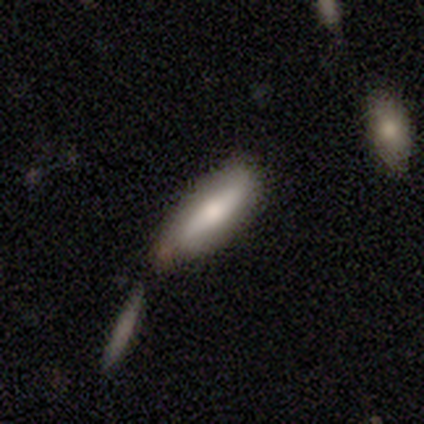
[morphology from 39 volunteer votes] smooth 64%, featured or disk 31%, star or artifact 5%. Down the decision tree: how rounded — cigar-shaped (64%); merging — none (46%).